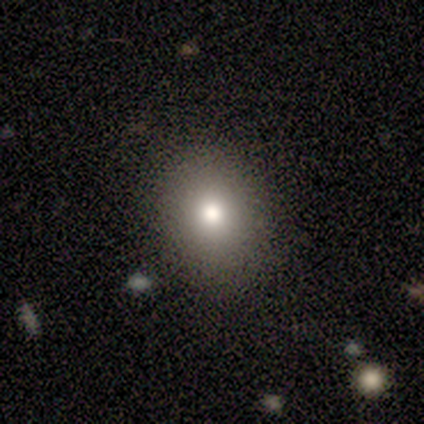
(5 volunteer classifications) Smooth or featured: smooth — 80% (star or artifact — 20%)
How rounded: round — 100%
Merging: none — 100%